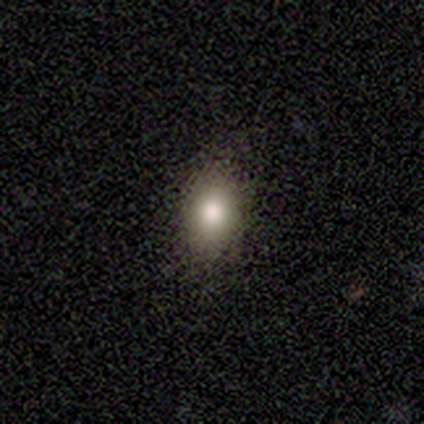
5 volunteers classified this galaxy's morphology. A smooth galaxy with no disk features (60%) that is round (67%).

Vote fractions:
- Smooth or featured? smooth: 60% / featured or disk: 20% / star or artifact: 20%
- How rounded? round: 67% / in between: 33% / cigar-shaped: 0%
- Merging? none: 100% / minor disturbance: 0% / major disturbance: 0% / merger: 0%